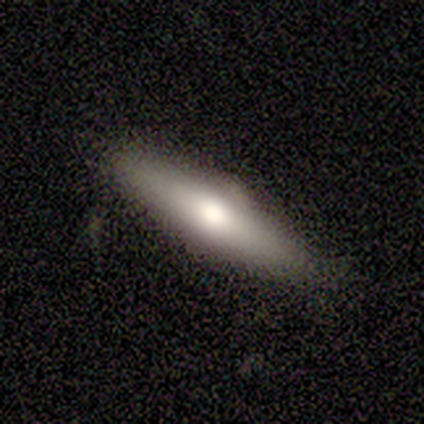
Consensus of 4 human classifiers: smooth 75%, featured or disk 25%, star or artifact 0%. Down the decision tree: how rounded — cigar-shaped (100%); merging — none (75%).